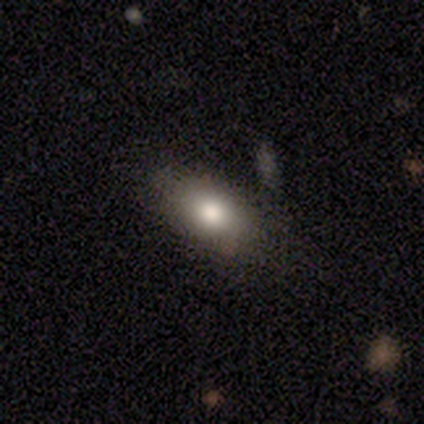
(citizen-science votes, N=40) Smooth or featured?
  - smooth: 78% *
  - featured or disk: 18%
  - star or artifact: 5%
How rounded?
  - in between: 68% *
  - round: 23%
  - cigar-shaped: 10%
Merging?
  - none: 68% *
  - minor disturbance: 24%
  - merger: 8%
  - major disturbance: 0%